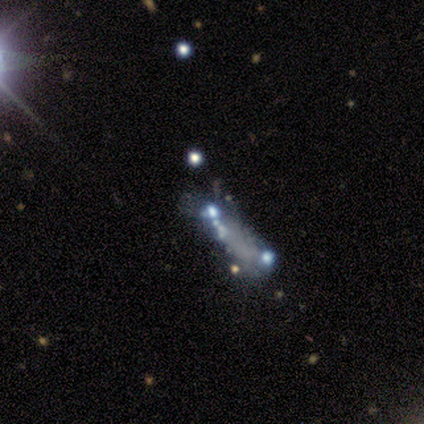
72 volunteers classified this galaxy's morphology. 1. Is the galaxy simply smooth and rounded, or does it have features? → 61% featured or disk, 25% star or artifact, 14% smooth.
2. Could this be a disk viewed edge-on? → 95% no, 5% yes.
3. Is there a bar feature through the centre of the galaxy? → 100% no, 0% strong, 0% weak.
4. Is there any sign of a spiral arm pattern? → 98% no, 2% yes.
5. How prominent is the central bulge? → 83% none, 10% moderate, 7% small, 0% dominant, 0% large.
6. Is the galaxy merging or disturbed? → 35% none, 28% merger, 22% major disturbance, 15% minor disturbance.